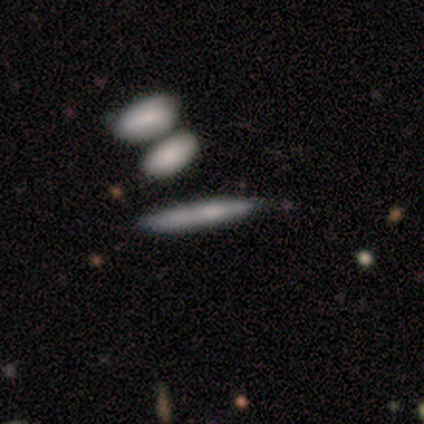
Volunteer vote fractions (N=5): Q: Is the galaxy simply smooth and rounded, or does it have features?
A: featured or disk — 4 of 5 (80%).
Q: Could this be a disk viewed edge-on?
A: yes — 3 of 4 (75%).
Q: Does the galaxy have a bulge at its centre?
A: boxy — 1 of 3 (33%, tied with none and rounded).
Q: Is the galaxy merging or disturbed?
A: minor disturbance — 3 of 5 (60%).